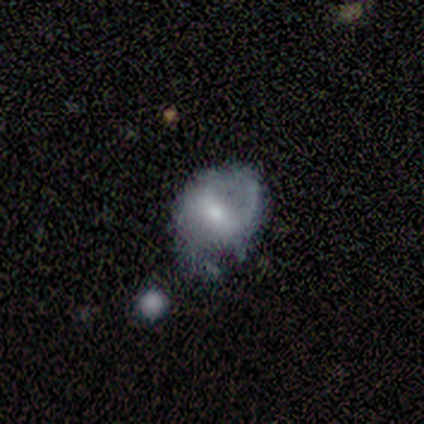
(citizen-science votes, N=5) A smooth galaxy with no disk features (60%) that is in between round and cigar-shaped (67%). Merging: minor disturbance (40%, tied with major disturbance).